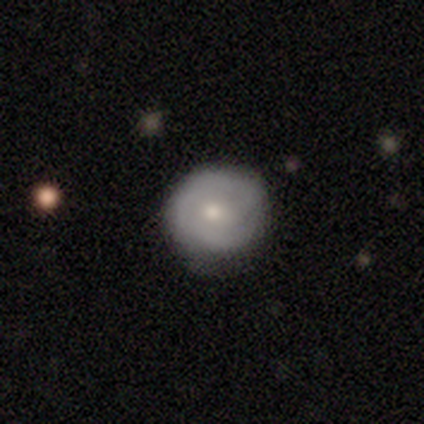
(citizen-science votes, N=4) Overall: smooth (75%). How rounded: round (100%). Merging: none (75%).